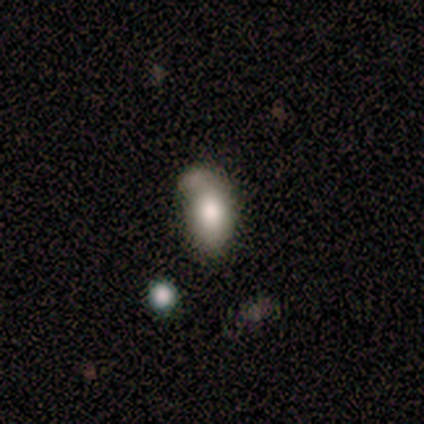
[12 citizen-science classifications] Smooth or featured? 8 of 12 (67%) said smooth. How rounded? 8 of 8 (100%) said in between. Merging? 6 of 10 (60%) said none.